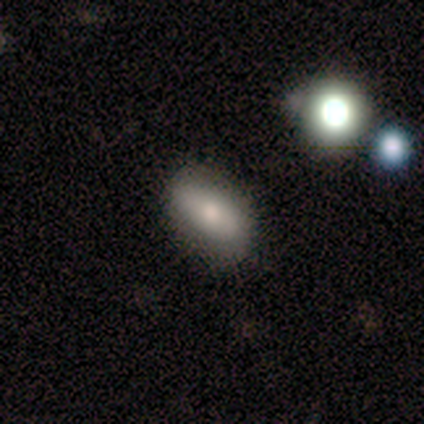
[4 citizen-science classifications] A featured or disk galaxy (50%) viewed edge-on (50%, tied with no) with a rounded central bulge (100%). Merging: none (67%).